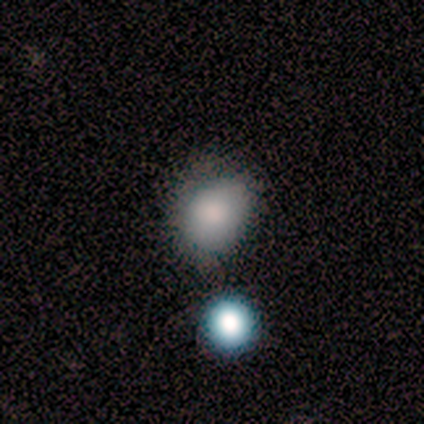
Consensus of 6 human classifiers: This appears to be a smooth galaxy with no disk features (67%) that is in between round and cigar-shaped (100%). Merging: none (80%).